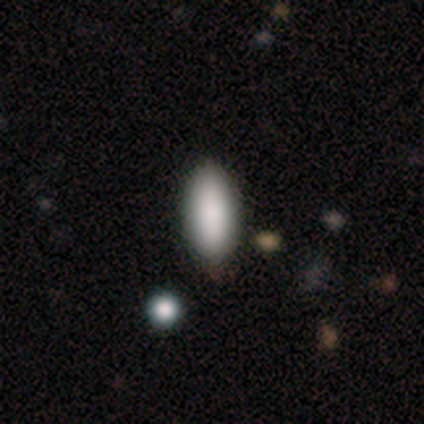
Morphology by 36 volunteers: smooth_or_featured: smooth (p=0.86) [alt: star or artifact p=0.08]
how_rounded: in between (p=0.90) [alt: cigar-shaped p=0.10]
merging: none (p=0.52) [alt: minor disturbance p=0.03]